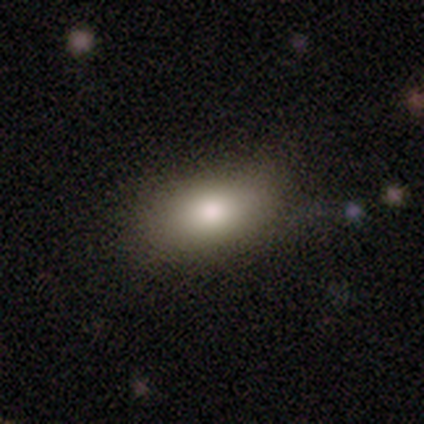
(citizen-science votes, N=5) Smooth or featured? 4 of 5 (80%) said smooth. How rounded? 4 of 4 (100%) said in between. Merging? 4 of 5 (80%) said none.